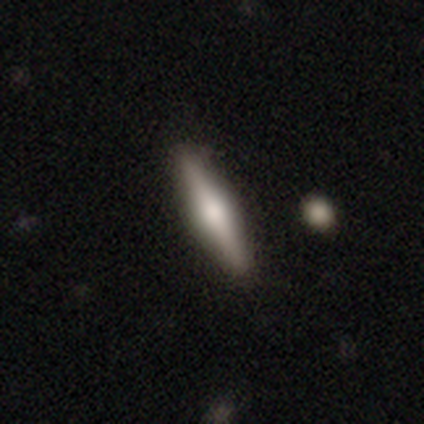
Overall: featured or disk (50%; smooth 48%). Edge-on disk: yes (100%). Edge-on bulge: rounded (80%). Merging: none (74%).